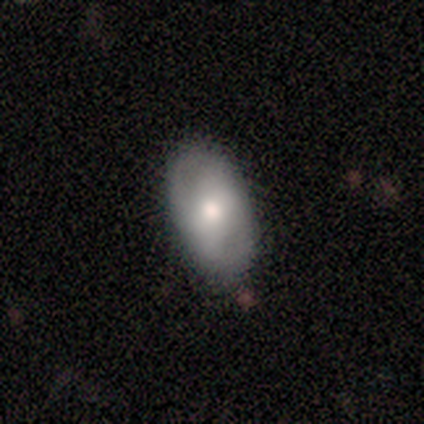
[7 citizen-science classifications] A smooth galaxy with no disk features (57%) that is in between round and cigar-shaped (100%). Merging: none (86%).